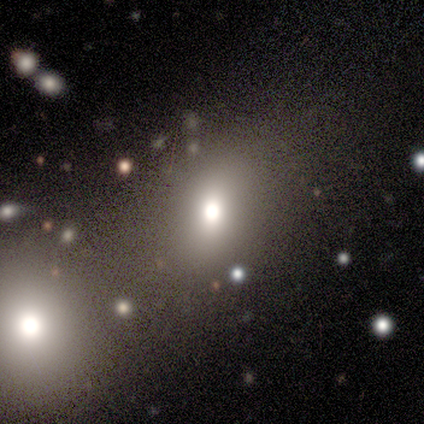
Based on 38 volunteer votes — Q: Smooth or featured?
A: smooth (71%); runner-up: star or artifact (18%)
Q: How rounded?
A: in between (63%); runner-up: round (30%)
Q: Merging?
A: none (68%); runner-up: merger (19%)